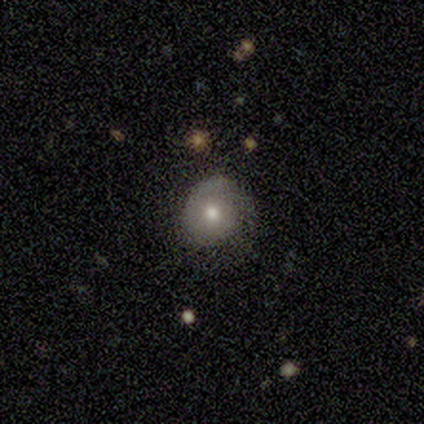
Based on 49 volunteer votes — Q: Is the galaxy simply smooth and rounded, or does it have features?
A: smooth — 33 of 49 (67%).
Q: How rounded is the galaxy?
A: round — 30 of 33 (91%).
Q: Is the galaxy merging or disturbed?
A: none — 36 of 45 (80%).